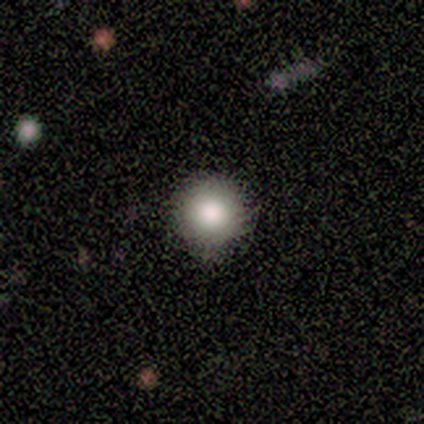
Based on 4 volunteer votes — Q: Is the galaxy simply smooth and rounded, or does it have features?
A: smooth — 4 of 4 (100%).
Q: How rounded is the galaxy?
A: round — 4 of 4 (100%).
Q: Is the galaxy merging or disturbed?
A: none — 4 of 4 (100%).